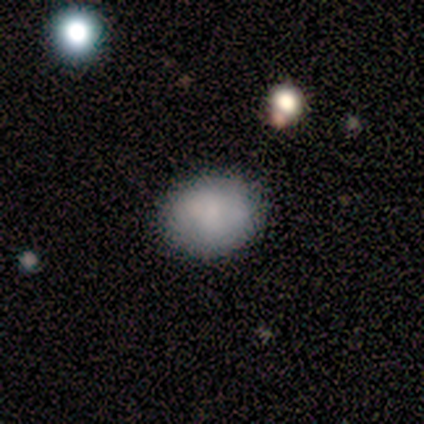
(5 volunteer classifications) A smooth galaxy with no disk features (100%) that is in between round and cigar-shaped (60%).

Vote fractions:
- Smooth or featured? smooth: 100% / featured or disk: 0% / star or artifact: 0%
- How rounded? in between: 60% / round: 40% / cigar-shaped: 0%
- Merging? none: 80% / minor disturbance: 20% / major disturbance: 0% / merger: 0%